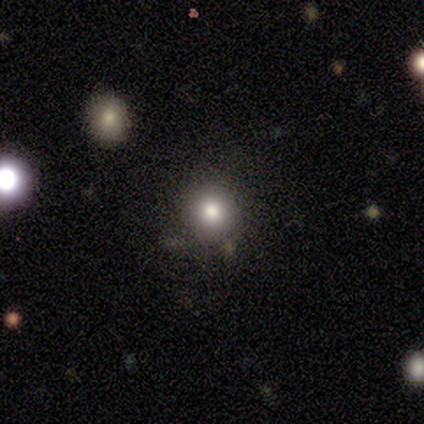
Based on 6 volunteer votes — Smooth or featured?
  - smooth: 83% *
  - star or artifact: 17%
  - featured or disk: 0%
How rounded?
  - round: 80% *
  - in between: 20%
  - cigar-shaped: 0%
Merging?
  - none: 100% *
  - minor disturbance: 0%
  - major disturbance: 0%
  - merger: 0%